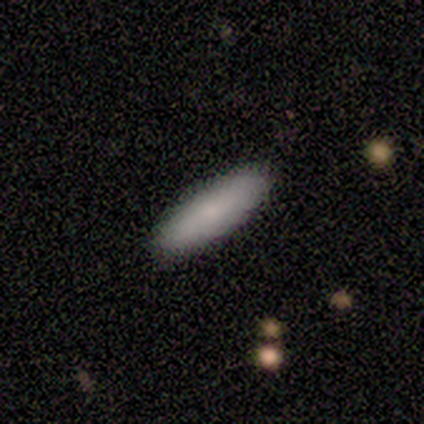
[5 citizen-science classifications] Smooth or featured: smooth — 80% (featured or disk — 20%)
How rounded: cigar-shaped — 75% (in between — 25%)
Merging: none — 100%